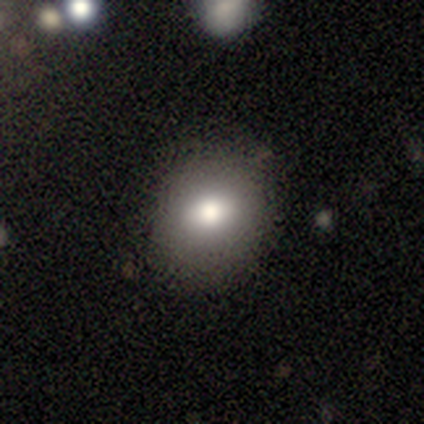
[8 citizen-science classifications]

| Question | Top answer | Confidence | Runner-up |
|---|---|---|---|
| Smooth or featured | smooth | 88% | featured or disk (12%) |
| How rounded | round | 86% | in between (14%) |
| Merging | none | 75% | minor disturbance (12%) |